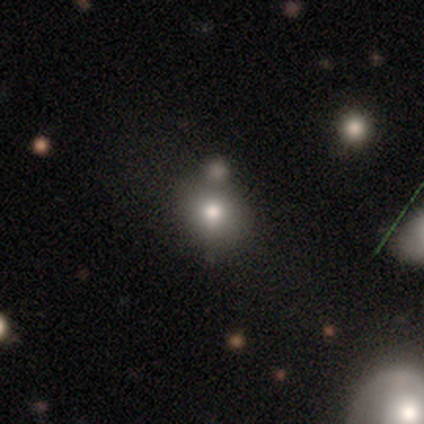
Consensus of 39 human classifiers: Overall: smooth (72%). How rounded: round (68%; in between 32%). Merging: none (72%).